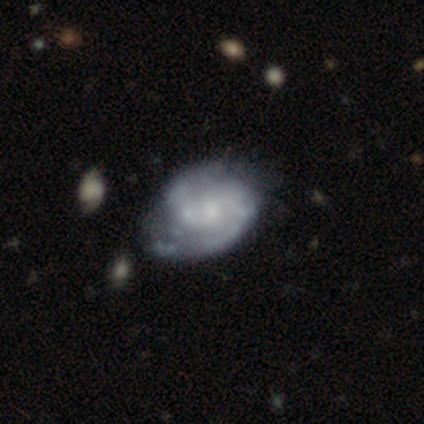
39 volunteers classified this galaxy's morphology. smooth-or-featured: featured or disk: 92% | smooth: 5% | star or artifact: 3%
  disk-edge-on: no: 100% | yes: 0%
    bar: no: 67% | weak: 31% | strong: 3%
    has-spiral-arms: yes: 89% | no: 11%
      spiral-winding: medium: 72% | tight: 25% | loose: 3%
      spiral-arm-count: 2: 66% | can't tell: 16% | 3: 12% | 4: 6% | 1: 0% | more than 4: 0%
    bulge-size: small: 58% | moderate: 28% | none: 11% | large: 3% | dominant: 0%
  merging: none: 39% | minor disturbance: 24% | major disturbance: 13% | merger: 3%